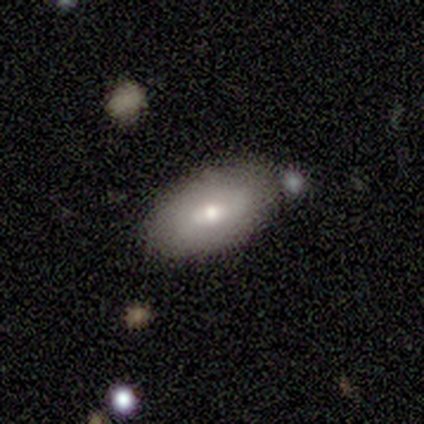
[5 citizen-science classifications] smooth 60%, featured or disk 40%, star or artifact 0%. Down the decision tree: how rounded — in between (100%); merging — none (80%).